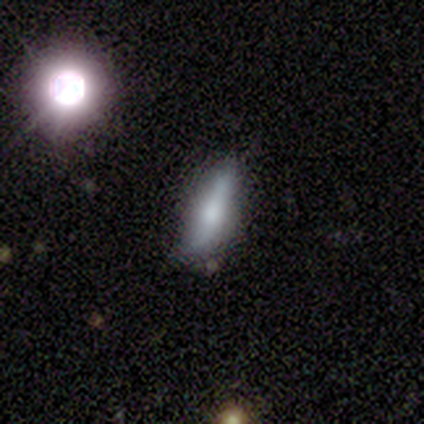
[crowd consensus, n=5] smooth-or-featured: smooth: 40% (tied) | featured or disk: 40% (tied) | star or artifact: 20%
  how-rounded: in between: 100% | round: 0% | cigar-shaped: 0%
  merging: none: 100% | minor disturbance: 0% | major disturbance: 0% | merger: 0%